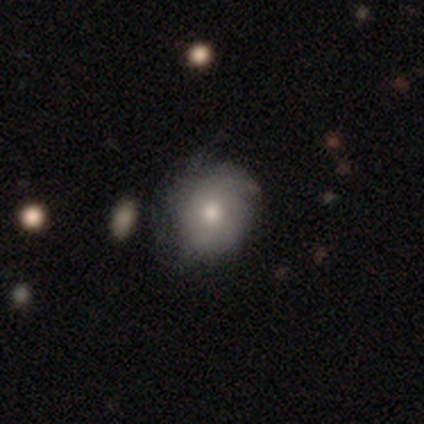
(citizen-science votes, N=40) This is possibly a smooth galaxy (48%). How rounded: likely round (79%). Merging: likely none (61%).